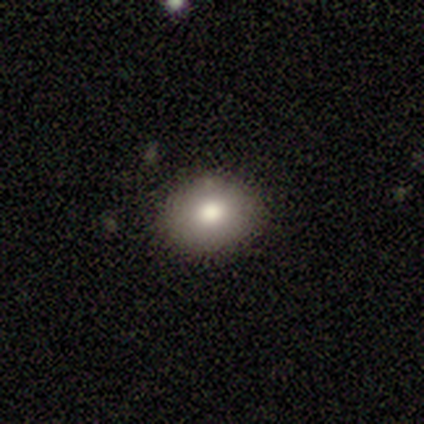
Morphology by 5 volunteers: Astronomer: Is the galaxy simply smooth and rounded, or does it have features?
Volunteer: smooth — 80%.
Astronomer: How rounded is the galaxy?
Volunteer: in between — 75%.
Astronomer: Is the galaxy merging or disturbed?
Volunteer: none — 80%.